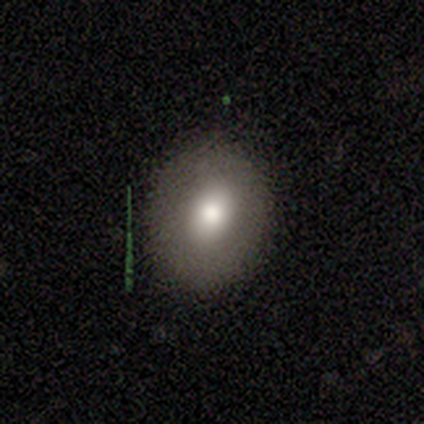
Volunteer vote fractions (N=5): smooth_or_featured: smooth (p=0.80) [alt: star or artifact p=0.20]
how_rounded: round (p=0.75) [alt: in between p=0.25]
merging: none (p=1.00)